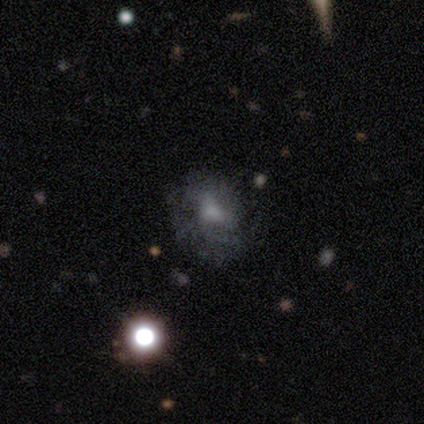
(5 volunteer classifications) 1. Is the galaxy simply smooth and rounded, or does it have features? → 40% smooth (tied), 40% featured or disk (tied), 20% star or artifact.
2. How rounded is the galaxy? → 100% in between, 0% round, 0% cigar-shaped.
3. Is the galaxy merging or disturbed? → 75% major disturbance, 25% none, 0% minor disturbance, 0% merger.